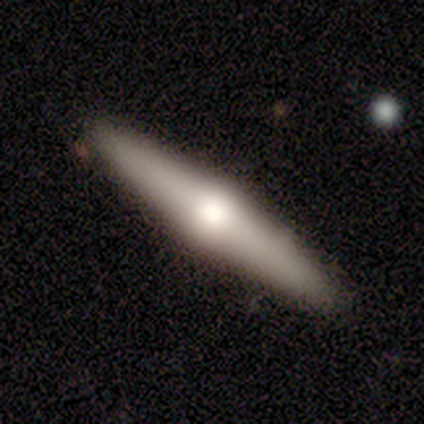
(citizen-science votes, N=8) This is likely a featured or disk galaxy (75%). It is clearly viewed edge-on (100%). Edge-on bulge: clearly rounded (83%). Merging: clearly none (88%).